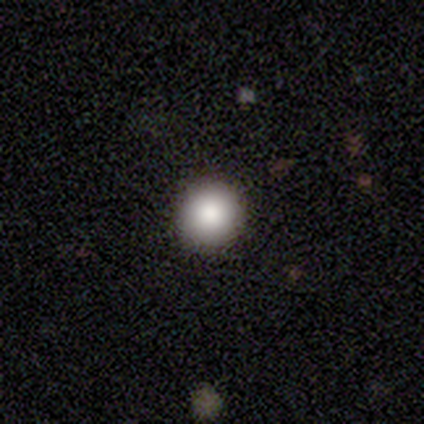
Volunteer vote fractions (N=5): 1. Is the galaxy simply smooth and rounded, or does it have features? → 100% smooth, 0% featured or disk, 0% star or artifact.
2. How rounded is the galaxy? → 100% round, 0% in between, 0% cigar-shaped.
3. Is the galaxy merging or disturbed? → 100% none, 0% minor disturbance, 0% major disturbance, 0% merger.